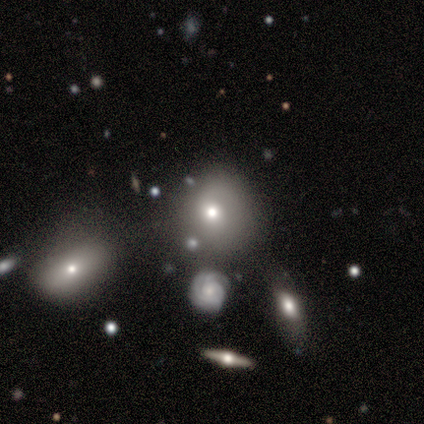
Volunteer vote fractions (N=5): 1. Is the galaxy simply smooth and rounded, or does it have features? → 40% smooth (tied), 40% featured or disk (tied), 20% star or artifact.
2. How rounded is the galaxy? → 50% round (tied), 50% in between (tied), 0% cigar-shaped.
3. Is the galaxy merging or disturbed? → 75% none, 25% major disturbance, 0% minor disturbance, 0% merger.